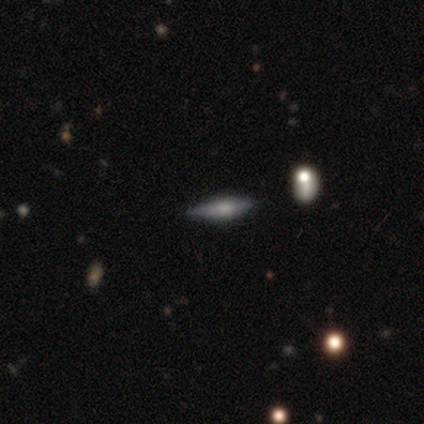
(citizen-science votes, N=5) smooth_or_featured: smooth (p=0.60) [alt: featured or disk p=0.40]
how_rounded: in between (p=0.67) [alt: cigar-shaped p=0.33]
merging: none (p=0.60) [alt: minor disturbance p=0.40]